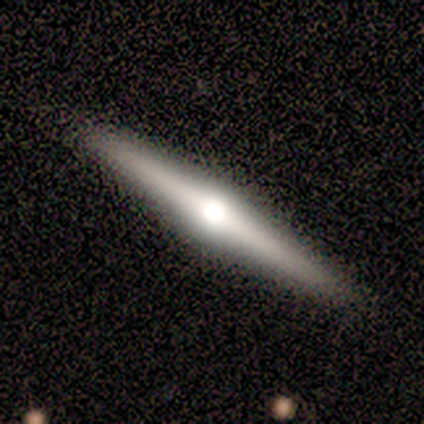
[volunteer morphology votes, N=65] This is clearly a featured or disk galaxy (85%). It is clearly viewed edge-on (100%). Edge-on bulge: clearly rounded (93%). Merging: clearly none (93%).